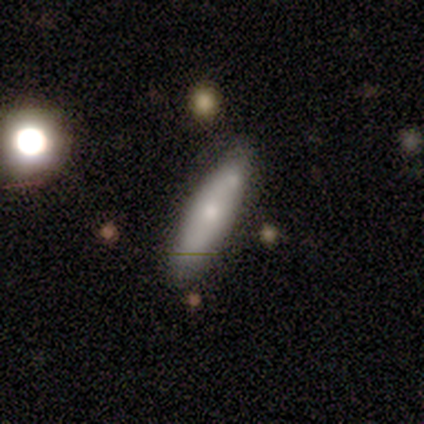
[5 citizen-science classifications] Smooth or featured: smooth — 100%
How rounded: cigar-shaped — 80% (in between — 20%)
Merging: none — 80% (minor disturbance — 20%)